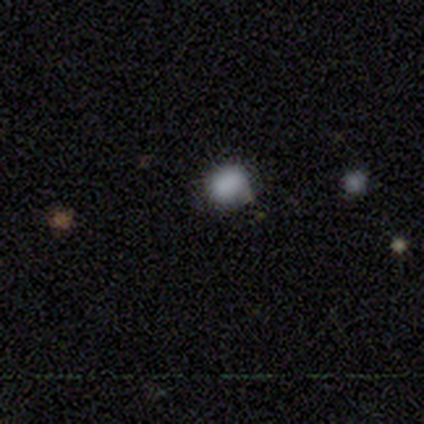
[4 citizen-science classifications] smooth_or_featured: smooth (p=1.00)
how_rounded: round (p=0.75) [alt: in between p=0.25]
merging: none (p=0.75) [alt: minor disturbance p=0.25]